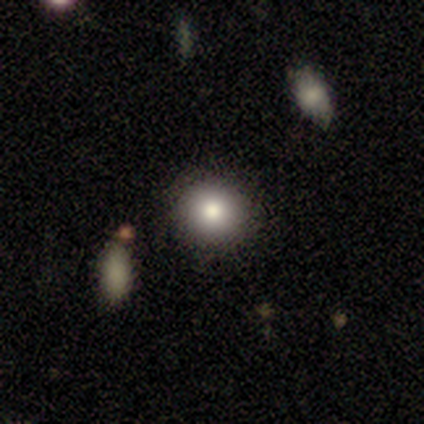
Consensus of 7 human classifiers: smooth_or_featured: smooth (p=1.00)
how_rounded: round (p=1.00)
merging: none (p=1.00)